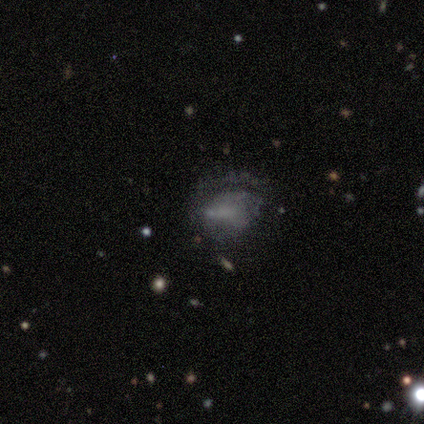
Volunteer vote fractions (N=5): smooth-or-featured: featured or disk: 40% (tied) | star or artifact: 40% (tied) | smooth: 20%
  disk-edge-on: no: 100% | yes: 0%
    bar: weak: 100% | strong: 0% | no: 0%
    has-spiral-arms: no: 100% | yes: 0%
    bulge-size: moderate: 50% (tied) | small: 50% (tied) | dominant: 0% | large: 0% | none: 0%
  merging: none: 33% (tied) | minor disturbance: 33% (tied) | major disturbance: 33% (tied) | merger: 0%